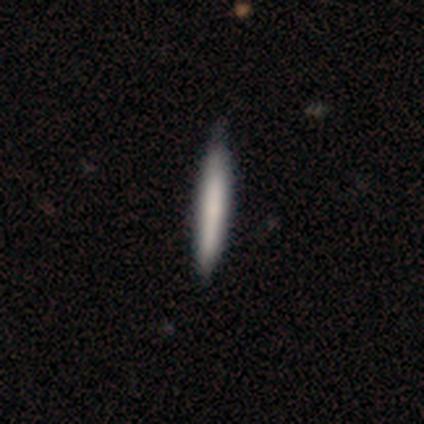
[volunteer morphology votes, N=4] This is clearly a smooth galaxy (100%). How rounded: clearly cigar-shaped (100%). Merging: likely none (75%).